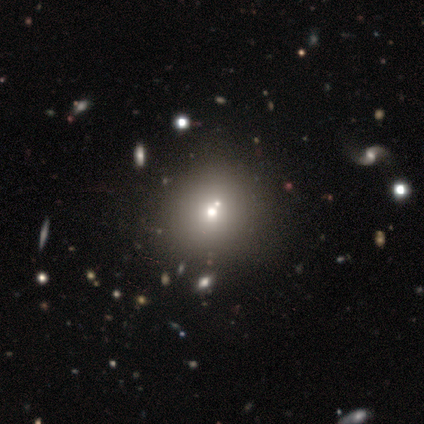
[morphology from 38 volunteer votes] smooth-or-featured: smooth: 61% | star or artifact: 21% | featured or disk: 18%
  how-rounded: round: 100% | in between: 0% | cigar-shaped: 0%
  merging: none: 63% | minor disturbance: 30% | merger: 7% | major disturbance: 0%